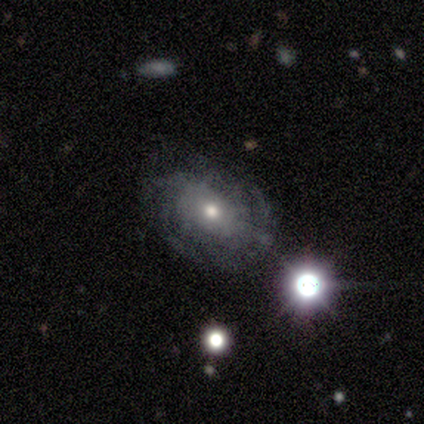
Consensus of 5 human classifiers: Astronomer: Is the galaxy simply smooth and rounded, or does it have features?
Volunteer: star or artifact — 60% (runner-up: featured or disk, 40%).